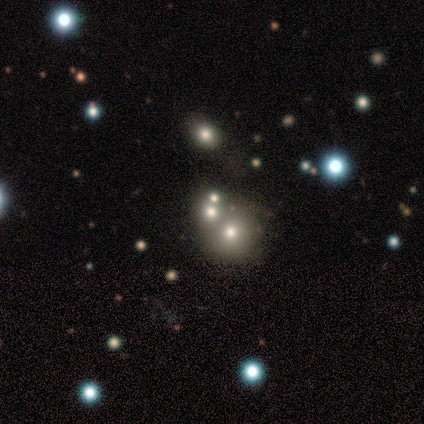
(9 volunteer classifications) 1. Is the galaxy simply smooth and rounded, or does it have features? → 67% star or artifact, 33% smooth, 0% featured or disk.